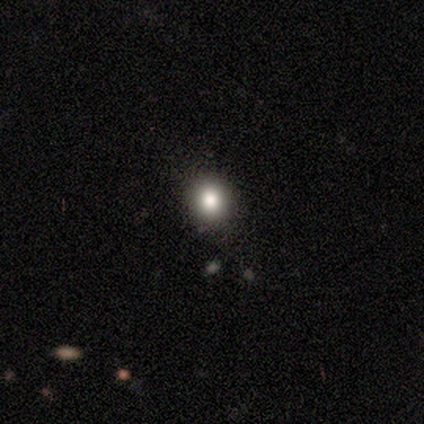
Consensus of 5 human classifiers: Smooth or featured? 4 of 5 (80%) said star or artifact.